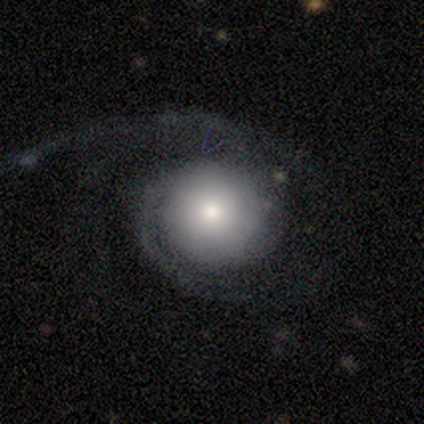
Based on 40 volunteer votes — A featured or disk galaxy (82%) with no bar (88%), 1 (38%) medium (42%) spiral arms (81%) and a moderate central bulge (34%). Merging: major disturbance (49%).